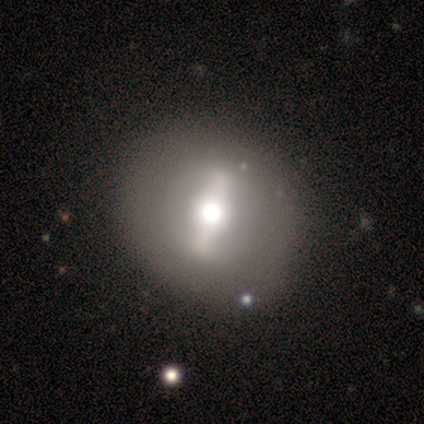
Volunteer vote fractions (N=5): Q: Smooth or featured?
A: featured or disk (60%); runner-up: star or artifact (40%)
Q: Edge-on disk?
A: no (67%); runner-up: yes (33%)
Q: Bar?
A: strong (100%)
Q: Spiral arms?
A: no (100%)
Q: Bulge size?
A: moderate (100%)
Q: Merging?
A: none (100%)